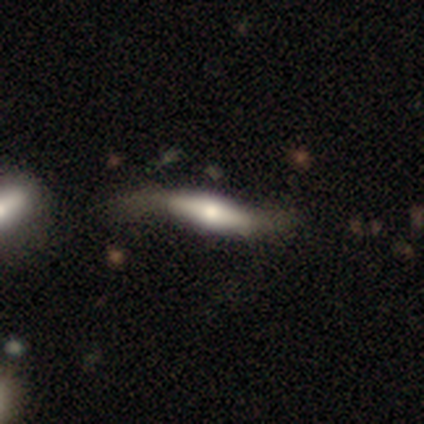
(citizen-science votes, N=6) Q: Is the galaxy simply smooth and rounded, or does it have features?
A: featured or disk — 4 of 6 (67%).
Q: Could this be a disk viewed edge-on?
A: no — 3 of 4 (75%).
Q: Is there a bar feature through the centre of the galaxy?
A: strong — 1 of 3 (33%, tied with weak and no).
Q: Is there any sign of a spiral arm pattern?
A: yes — 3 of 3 (100%).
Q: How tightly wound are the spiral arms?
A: loose — 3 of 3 (100%).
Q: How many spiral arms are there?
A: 2 — 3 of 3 (100%).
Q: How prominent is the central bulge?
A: moderate — 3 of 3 (100%).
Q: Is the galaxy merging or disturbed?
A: none — 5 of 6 (83%).